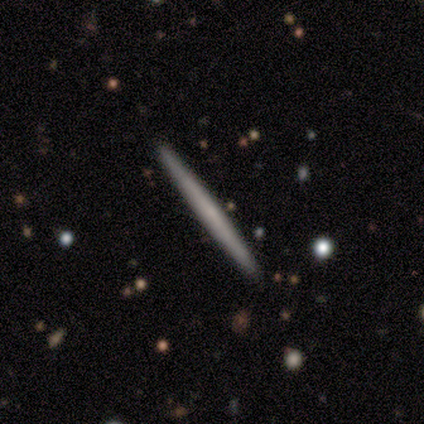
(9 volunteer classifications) smooth_or_featured: smooth (p=0.56) [alt: featured or disk p=0.44]
how_rounded: cigar-shaped (p=1.00)
merging: none (p=0.89) [alt: minor disturbance p=0.11]